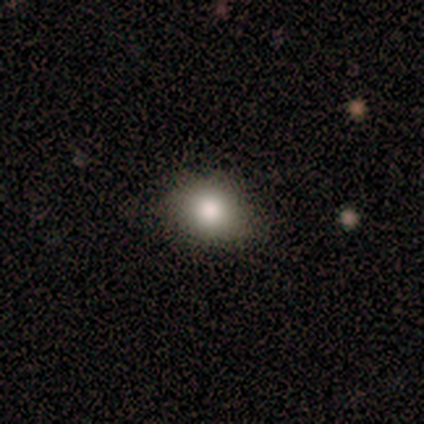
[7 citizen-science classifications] smooth_or_featured: smooth (p=1.00)
how_rounded: round (p=0.71) [alt: in between p=0.29]
merging: none (p=0.86) [alt: minor disturbance p=0.14]